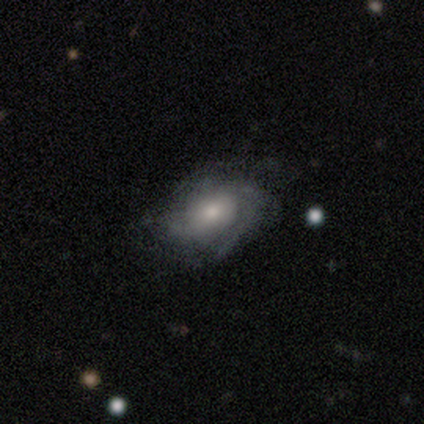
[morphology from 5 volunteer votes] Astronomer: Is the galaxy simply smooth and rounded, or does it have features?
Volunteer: featured or disk — 60%.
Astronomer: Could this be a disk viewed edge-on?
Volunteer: no — 100%.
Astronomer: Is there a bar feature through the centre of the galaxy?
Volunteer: no — 67%.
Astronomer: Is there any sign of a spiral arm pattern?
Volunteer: yes — 100%.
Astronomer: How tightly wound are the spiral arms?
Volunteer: tight — 67%.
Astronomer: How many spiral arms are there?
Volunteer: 1 — 33%, tied with 4 and can't tell at 33%.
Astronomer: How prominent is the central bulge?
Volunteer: moderate — 100%.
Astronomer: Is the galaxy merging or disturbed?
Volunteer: none — 100%.